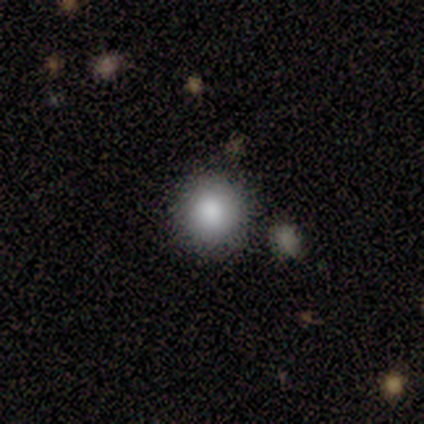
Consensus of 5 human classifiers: Morphology: type=smooth (100%); roundness=round (100%); merging=none (100%).